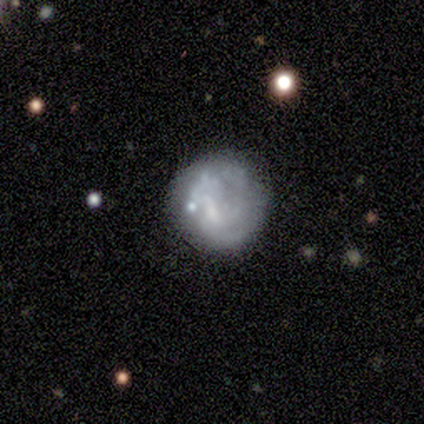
smooth_or_featured: featured or disk (p=0.80) [alt: smooth p=0.20]
disk_edge_on: no (p=1.00)
bar: weak (p=0.50) [tied with: no p=0.50]
has_spiral_arms: no (p=1.00)
bulge_size: small (p=0.75) [alt: none p=0.25]
merging: major disturbance (p=0.60) [alt: none p=0.40]